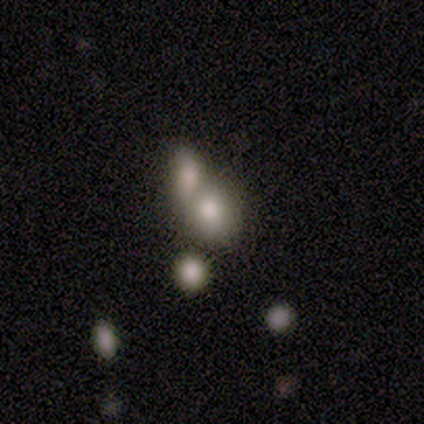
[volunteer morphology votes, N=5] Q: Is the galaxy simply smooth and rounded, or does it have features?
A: smooth — 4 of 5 (80%).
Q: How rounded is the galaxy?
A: in between — 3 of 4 (75%).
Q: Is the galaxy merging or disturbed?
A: merger — 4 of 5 (80%).